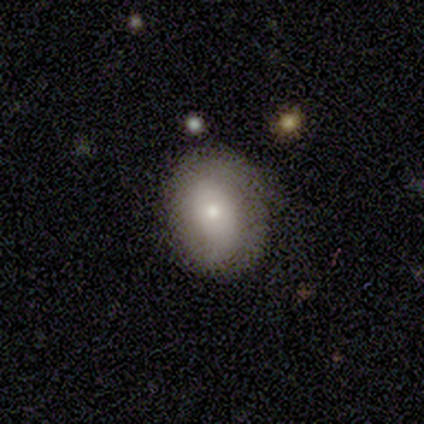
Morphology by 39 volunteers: Smooth or featured? 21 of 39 (54%) said smooth. How rounded? 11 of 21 (52%) said in between. Merging? 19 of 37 (51%) said none.